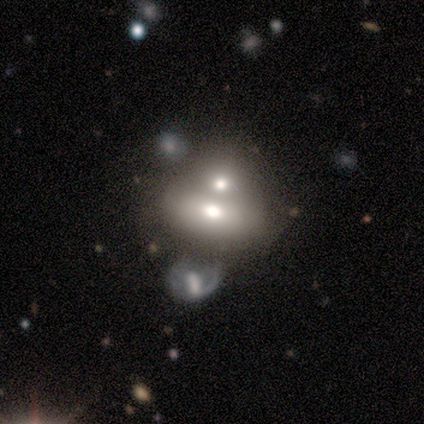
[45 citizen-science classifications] Q: Smooth or featured?
A: smooth (51%); runner-up: featured or disk (38%)
Q: How rounded?
A: in between (91%); runner-up: round (9%)
Q: Merging?
A: merger (80%); runner-up: minor disturbance (8%)